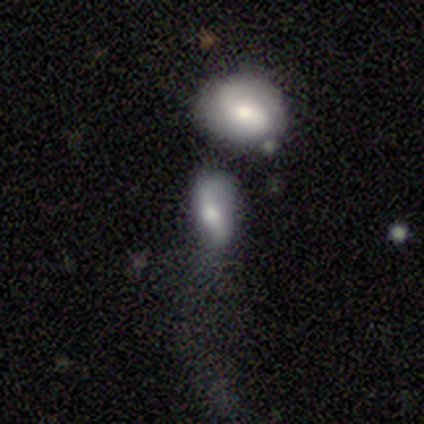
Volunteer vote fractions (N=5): Q: Smooth or featured?
A: featured or disk (60%); runner-up: smooth (40%)
Q: Edge-on disk?
A: no (100%)
Q: Bar?
A: strong (100%)
Q: Spiral arms?
A: no (67%); runner-up: yes (33%)
Q: Bulge size?
A: large (33%); tied with: moderate (33%); small (33%)
Q: Merging?
A: minor disturbance (40%); tied with: major disturbance (40%)